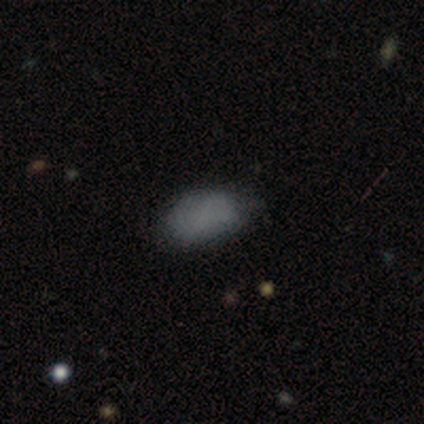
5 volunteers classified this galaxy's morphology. This appears to be a smooth galaxy with no disk features (60%) that is in between round and cigar-shaped (100%). Merging: none (80%).